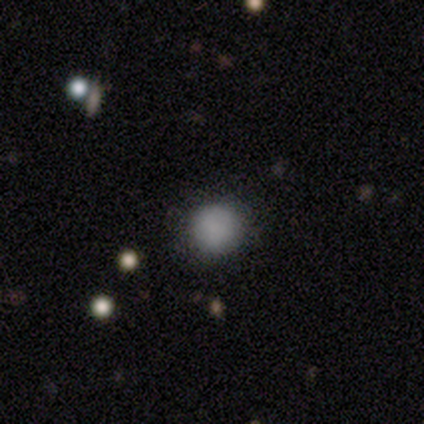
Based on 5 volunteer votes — Smooth or featured? smooth (100%)
How rounded? round (100%)
Merging? none (100%)